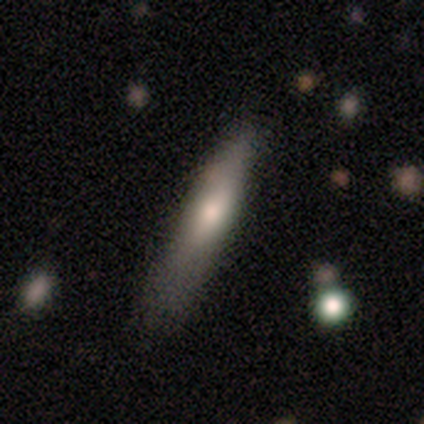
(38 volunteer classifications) This appears to be a smooth galaxy with no disk features (66%) that is cigar-shaped (60%). Merging: none (36%).